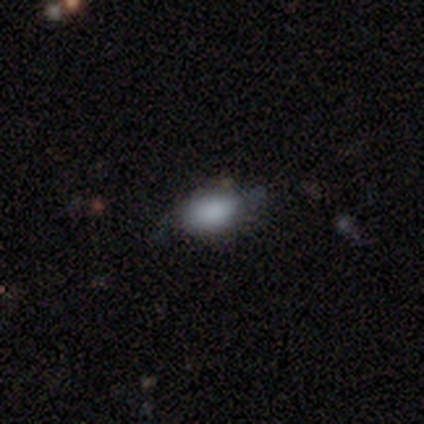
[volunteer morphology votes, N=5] A smooth galaxy with no disk features (80%) that is in between round and cigar-shaped (75%). Merging: none (75%).